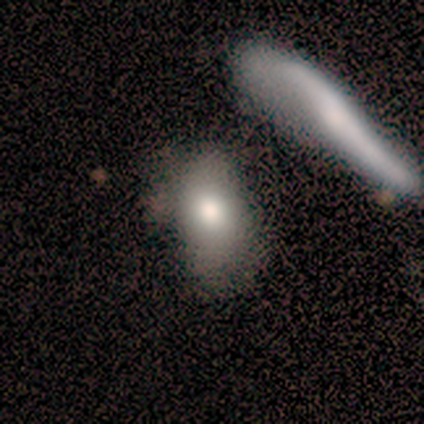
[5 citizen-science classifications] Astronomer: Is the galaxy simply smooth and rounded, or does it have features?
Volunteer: featured or disk — 60%.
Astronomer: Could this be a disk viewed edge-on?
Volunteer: no — 67%.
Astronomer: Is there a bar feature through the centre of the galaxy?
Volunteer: no — 100%.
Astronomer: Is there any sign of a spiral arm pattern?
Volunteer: no — 100%.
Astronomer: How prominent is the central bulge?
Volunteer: moderate — 100%.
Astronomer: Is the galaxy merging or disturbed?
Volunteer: minor disturbance — 50%.